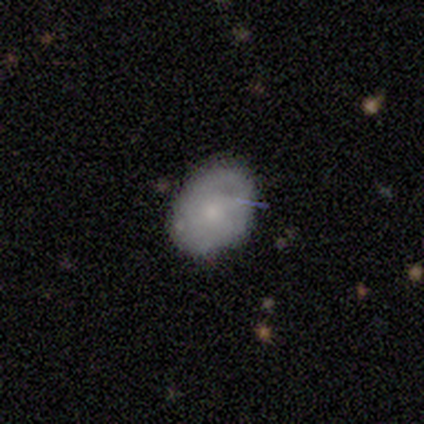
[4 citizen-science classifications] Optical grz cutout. It shows a smooth galaxy with no disk features (75%) that is in between round and cigar-shaped (67%). Merging: none (75%).